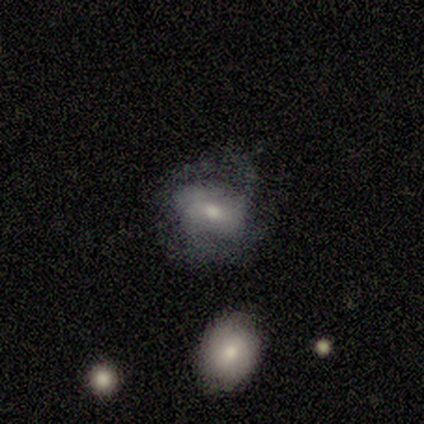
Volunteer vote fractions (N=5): Volunteers were most divided on "bulge size": moderate: 50%, small: 25%, none: 25%, dominant: 0%, large: 0%. More confident: edge-on disk — no (100%); smooth or featured — featured or disk (80%); bar — no (75%); spiral arms — no (75%); merging — none (50%).